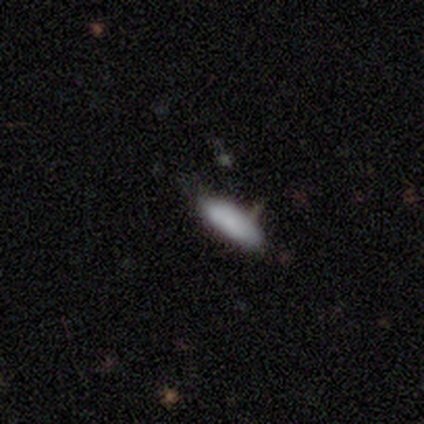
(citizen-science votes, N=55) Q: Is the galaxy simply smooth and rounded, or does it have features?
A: smooth — 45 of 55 (82%).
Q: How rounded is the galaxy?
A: in between — 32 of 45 (71%).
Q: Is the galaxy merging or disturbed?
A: none — 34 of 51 (67%).